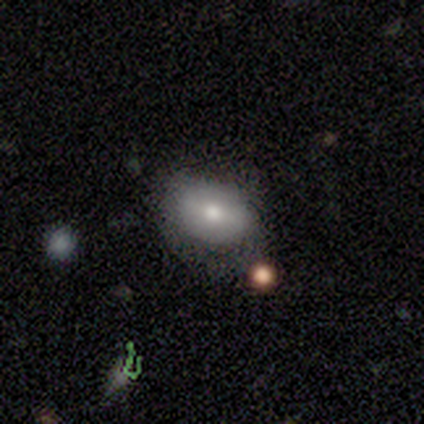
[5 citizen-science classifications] This appears to be a smooth galaxy with no disk features (80%) that is in between round and cigar-shaped (100%). Merging: minor disturbance (60%).